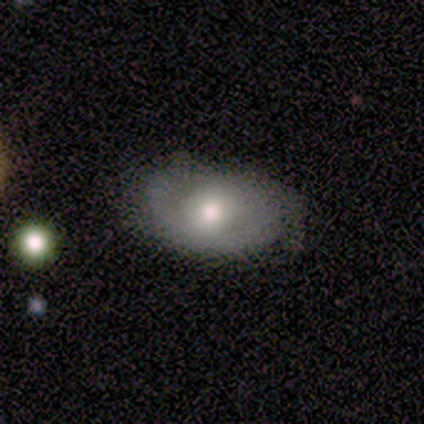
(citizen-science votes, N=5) This appears to be a featured or disk galaxy (60%) with no bar (67%), 2 (100%) tight (33%, tied with medium and loose) spiral arms (100%) and a moderate central bulge (33%, tied with small and none). Merging: minor disturbance (60%).